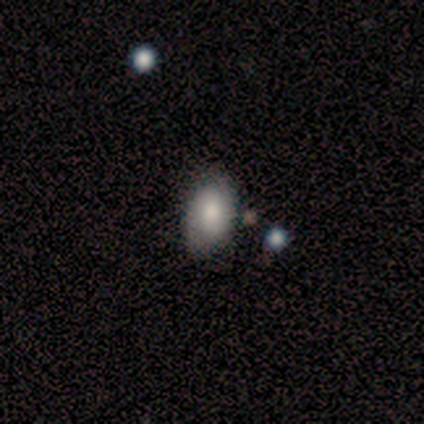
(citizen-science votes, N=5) smooth-or-featured: smooth: 40% (tied) | featured or disk: 40% (tied) | star or artifact: 20%
  how-rounded: in between: 100% | round: 0% | cigar-shaped: 0%
  merging: none: 75% | minor disturbance: 25% | major disturbance: 0% | merger: 0%